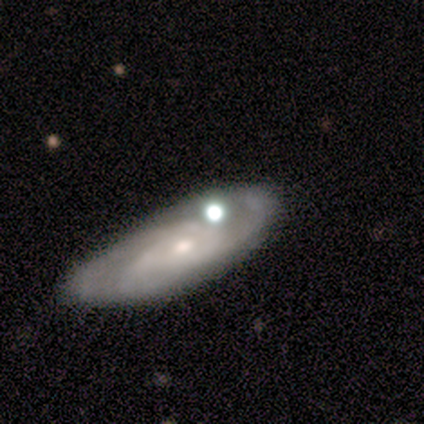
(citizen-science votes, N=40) A featured or disk galaxy (70%) with no bar (77%), 3 (62%) medium (62%) spiral arms (81%) and a moderate central bulge (50%). Merging: none (53%).